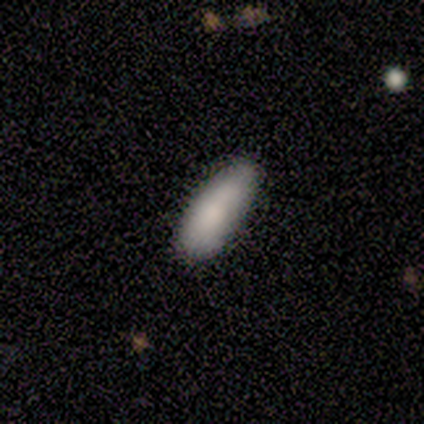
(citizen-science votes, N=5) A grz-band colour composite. It shows a smooth galaxy with no disk features (80%) that is in between round and cigar-shaped (50%, tied with cigar-shaped). Merging: minor disturbance (60%).